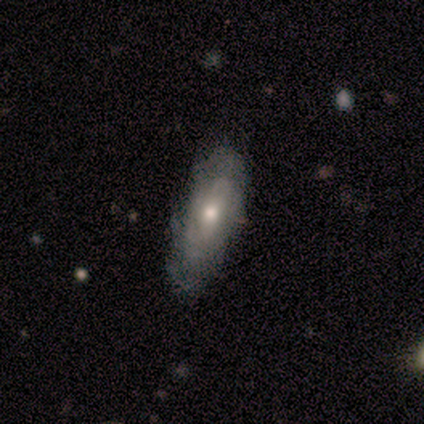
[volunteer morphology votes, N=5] Smooth or featured? featured or disk (60%)
Edge-on disk? no (67%)
Bar? weak (100%)
Spiral arms? yes (50%, tied with no)
Spiral winding? tight (100%)
Spiral arm count? can't tell (100%)
Bulge size? moderate (50%, tied with small)
Merging? none (80%)